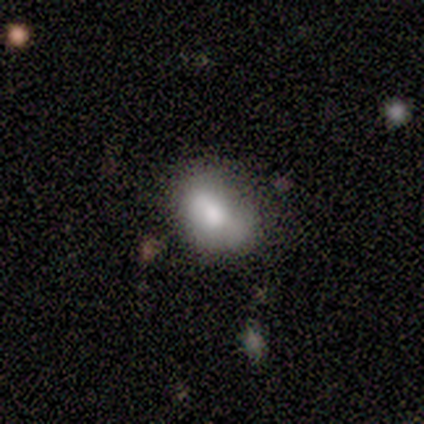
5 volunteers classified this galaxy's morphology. Q: Smooth or featured?
A: smooth (100%)
Q: How rounded?
A: in between (100%)
Q: Merging?
A: minor disturbance (60%); runner-up: none (40%)